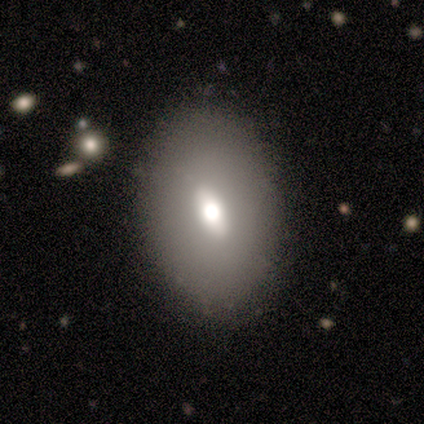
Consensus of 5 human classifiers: A smooth galaxy with no disk features (60%) that is in between round and cigar-shaped (100%).

Vote fractions:
- Smooth or featured? smooth: 60% / featured or disk: 40% / star or artifact: 0%
- How rounded? in between: 100% / round: 0% / cigar-shaped: 0%
- Merging? none: 80% / minor disturbance: 20% / major disturbance: 0% / merger: 0%